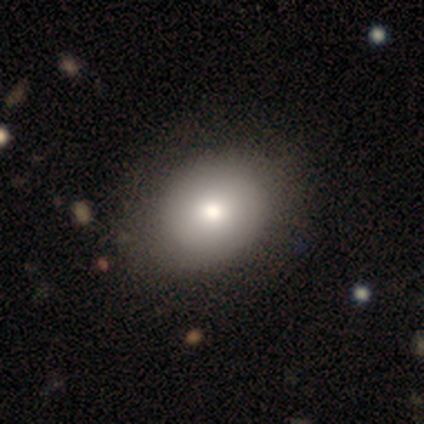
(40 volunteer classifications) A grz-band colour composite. It shows a smooth galaxy with no disk features (80%) that is round (62%). Merging: none (72%).